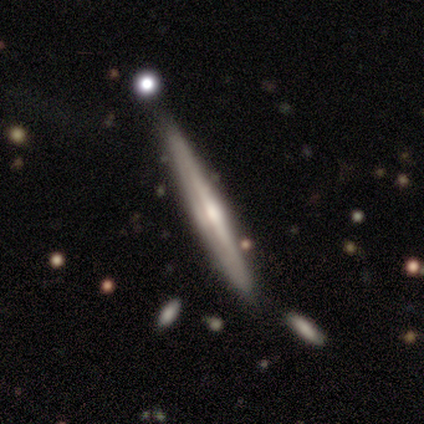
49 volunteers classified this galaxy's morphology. Overall: featured or disk (86%). Edge-on disk: yes (100%). Edge-on bulge: rounded (83%). Merging: none (80%).